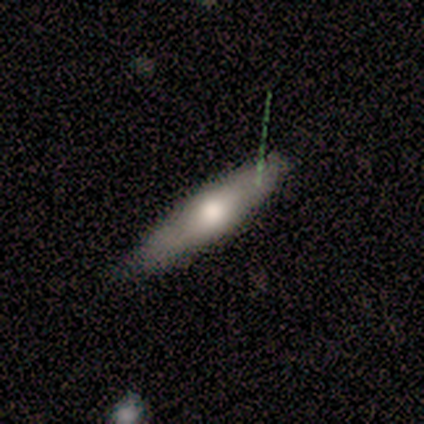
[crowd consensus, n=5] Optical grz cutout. It shows a smooth galaxy with no disk features (60%) that is cigar-shaped (67%). Merging: none (80%).